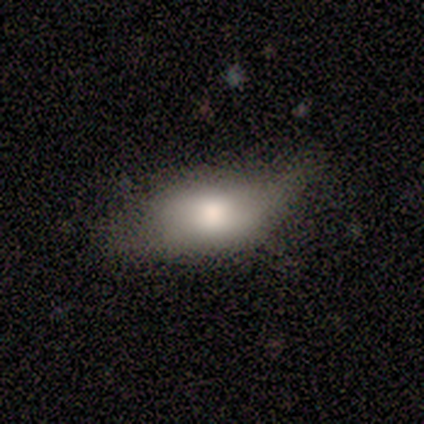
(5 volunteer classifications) smooth-or-featured: smooth: 80% | featured or disk: 20% | star or artifact: 0%
  how-rounded: in between: 100% | round: 0% | cigar-shaped: 0%
  merging: minor disturbance: 60% | major disturbance: 40% | none: 0% | merger: 0%